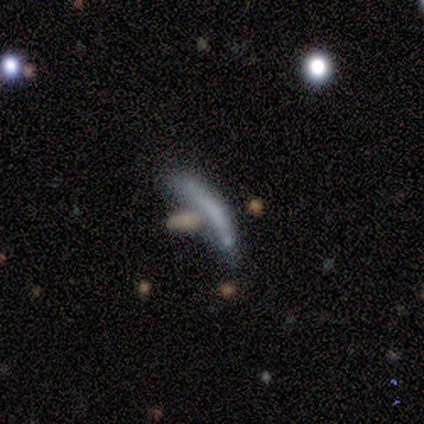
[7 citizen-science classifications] Smooth or featured: featured or disk — 71% (smooth — 29%)
Edge-on disk: yes — 60% (no — 40%)
Edge-on bulge: none — 100%
Merging: none — 43% (tied with major disturbance — 43%)